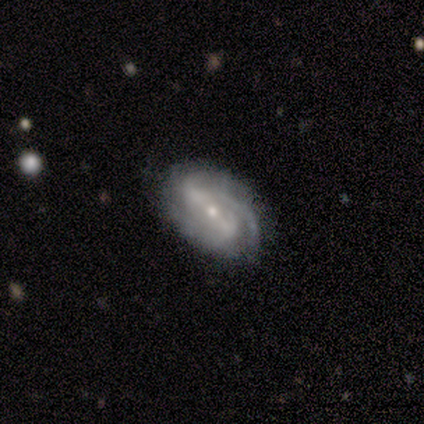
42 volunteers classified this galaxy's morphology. A featured or disk galaxy (76%) with a strong bar (42%), 2 (37%, tied with 3) tight (50%) spiral arms (97%) and a small central bulge (77%). Merging: none (71%).